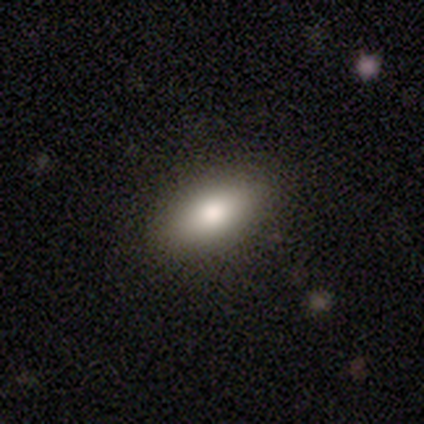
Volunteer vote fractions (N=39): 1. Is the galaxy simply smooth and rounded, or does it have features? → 77% smooth, 15% featured or disk, 8% star or artifact.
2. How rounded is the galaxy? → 83% in between, 13% cigar-shaped, 3% round.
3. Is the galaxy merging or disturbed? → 78% none, 14% minor disturbance, 6% major disturbance, 3% merger.